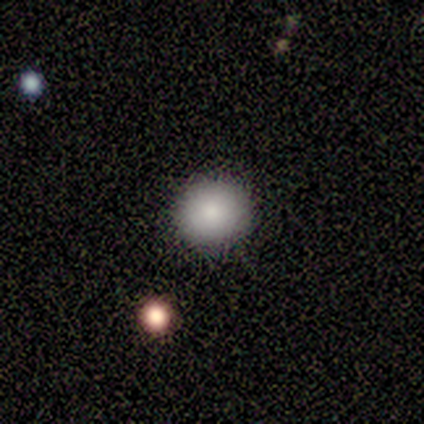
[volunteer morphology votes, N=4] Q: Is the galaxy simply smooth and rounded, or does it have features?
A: smooth — 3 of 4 (75%).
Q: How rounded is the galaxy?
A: round — 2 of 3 (67%).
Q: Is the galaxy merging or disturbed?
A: none — 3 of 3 (100%).